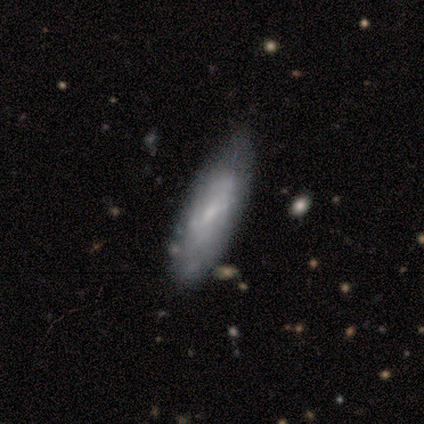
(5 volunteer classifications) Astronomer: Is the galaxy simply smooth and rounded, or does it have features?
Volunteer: smooth — 60%.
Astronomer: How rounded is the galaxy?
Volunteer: in between — 67%.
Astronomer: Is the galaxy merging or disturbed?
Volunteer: none — 50%.